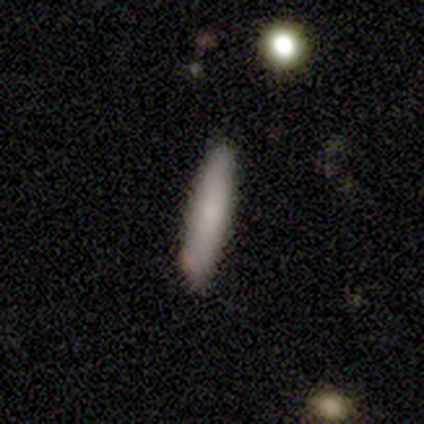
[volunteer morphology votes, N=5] Overall: smooth (80%). How rounded: cigar-shaped (100%). Merging: none (80%).